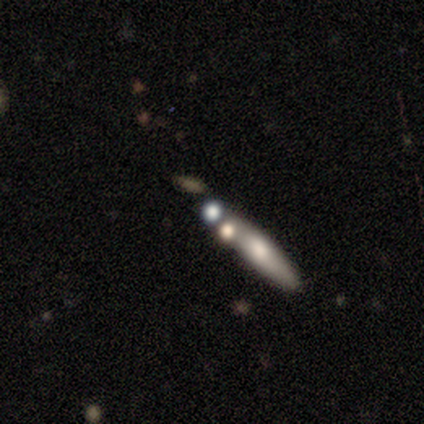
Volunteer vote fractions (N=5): Smooth or featured: smooth — 100%
How rounded: cigar-shaped — 100%
Merging: merger — 60% (none — 20%)